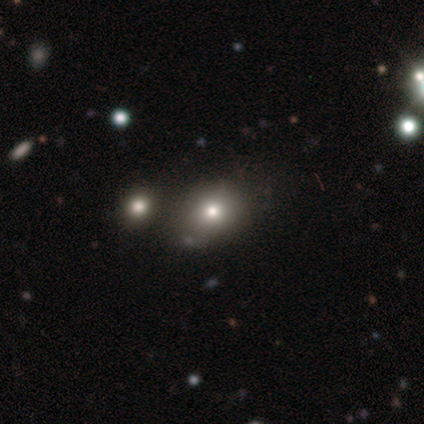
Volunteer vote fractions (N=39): A smooth galaxy with no disk features (69%) that is in between round and cigar-shaped (56%). Merging: none (78%).